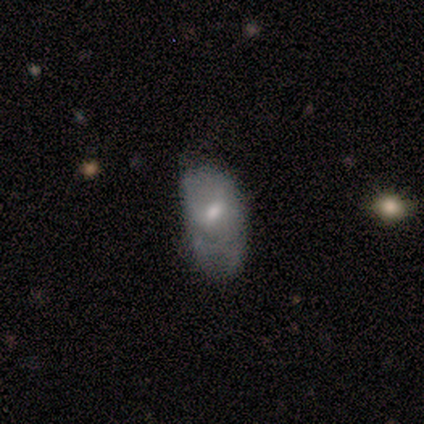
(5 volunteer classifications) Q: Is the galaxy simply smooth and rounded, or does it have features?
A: featured or disk — 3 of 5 (60%).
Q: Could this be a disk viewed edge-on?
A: no — 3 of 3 (100%).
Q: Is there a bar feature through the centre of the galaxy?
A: no — 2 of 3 (67%).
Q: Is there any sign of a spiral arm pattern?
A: no — 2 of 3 (67%).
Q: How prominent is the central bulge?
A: moderate — 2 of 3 (67%).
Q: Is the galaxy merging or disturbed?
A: major disturbance — 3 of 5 (60%).